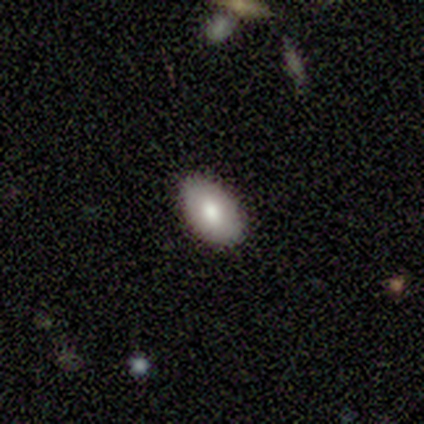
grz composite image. It shows a smooth galaxy with no disk features (79%) that is in between round and cigar-shaped (84%). Merging: none (94%).